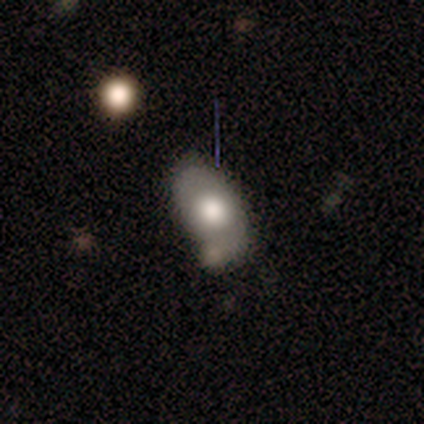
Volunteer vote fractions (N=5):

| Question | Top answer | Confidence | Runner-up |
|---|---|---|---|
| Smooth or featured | smooth | 80% | featured or disk (20%) |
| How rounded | in between | 75% | round (25%) |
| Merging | minor disturbance | 60% | none (20%) |